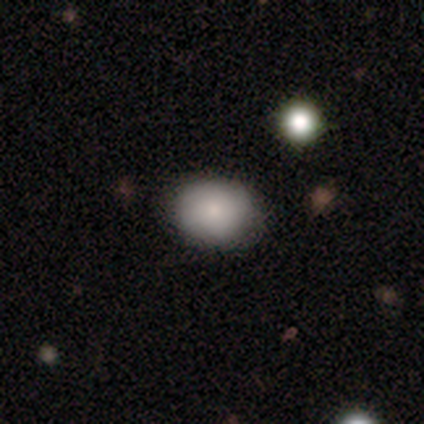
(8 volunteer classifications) smooth-or-featured: smooth: 88% | featured or disk: 12% | star or artifact: 0%
  how-rounded: round: 57% | in between: 43% | cigar-shaped: 0%
  merging: none: 88% | minor disturbance: 12% | major disturbance: 0% | merger: 0%